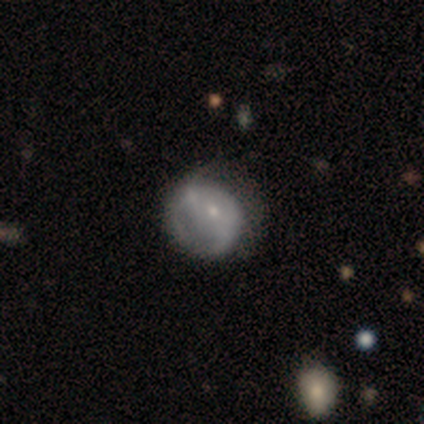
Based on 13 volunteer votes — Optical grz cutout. It shows a smooth galaxy with no disk features (54%) that is round (57%). Merging: none (46%).